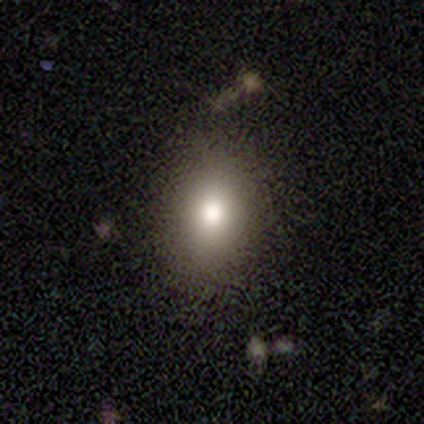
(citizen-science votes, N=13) Overall: smooth (85%). How rounded: in between (82%). Merging: none (85%).